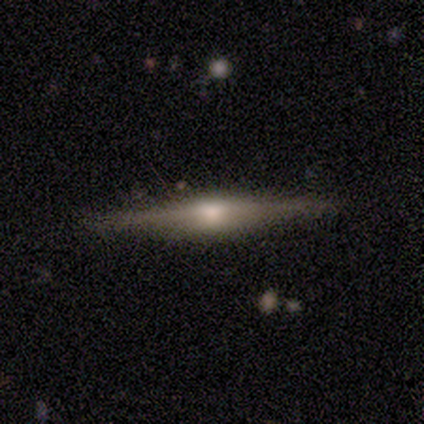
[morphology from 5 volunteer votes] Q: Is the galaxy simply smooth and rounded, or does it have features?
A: featured or disk — 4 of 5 (80%).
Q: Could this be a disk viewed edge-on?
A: yes — 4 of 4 (100%).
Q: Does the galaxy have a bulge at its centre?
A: rounded — 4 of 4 (100%).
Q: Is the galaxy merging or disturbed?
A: none — 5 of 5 (100%).